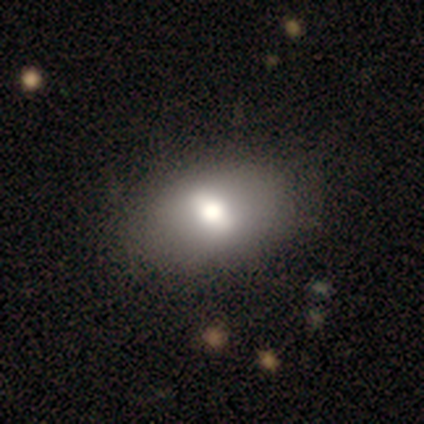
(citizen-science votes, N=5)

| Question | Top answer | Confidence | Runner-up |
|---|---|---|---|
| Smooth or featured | star or artifact | 60% | featured or disk (40%) |